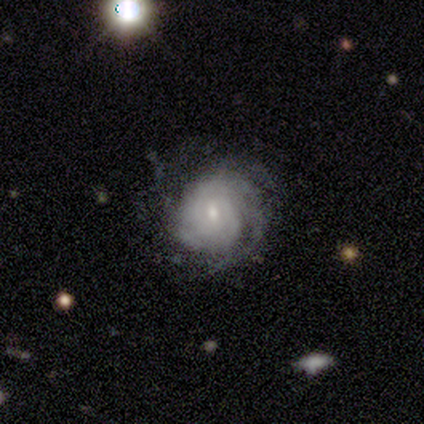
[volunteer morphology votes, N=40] A featured or disk galaxy (90%) with no bar (58%), tight (74%) spiral arms (94%) and a small central bulge (50%). Merging: none (72%).